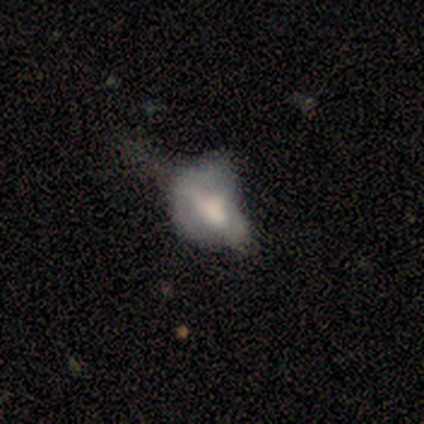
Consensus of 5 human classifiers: Q: Smooth or featured?
A: smooth (60%); runner-up: star or artifact (40%)
Q: How rounded?
A: in between (100%)
Q: Merging?
A: none (67%); runner-up: major disturbance (33%)